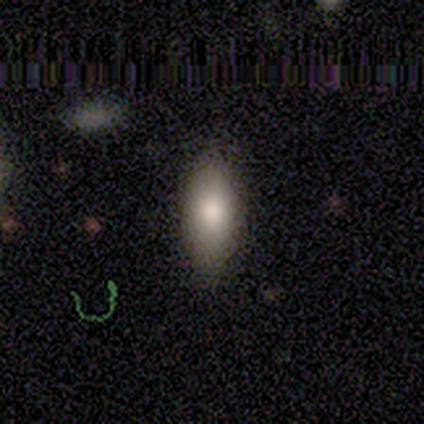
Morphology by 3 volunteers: A smooth galaxy with no disk features (100%) that is in between round and cigar-shaped (100%). Merging: none (100%).